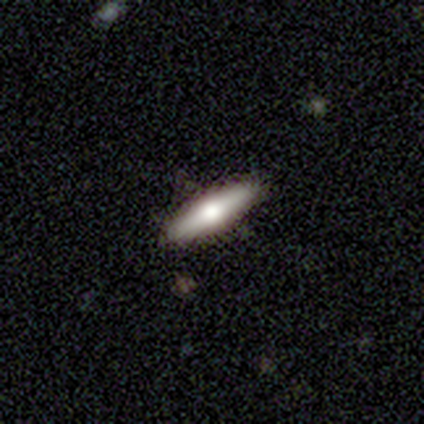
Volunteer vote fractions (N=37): Morphology: type=featured or disk (65%); edge-on=yes (92%); edge-on bulge=rounded (86%); merging=none (89%).